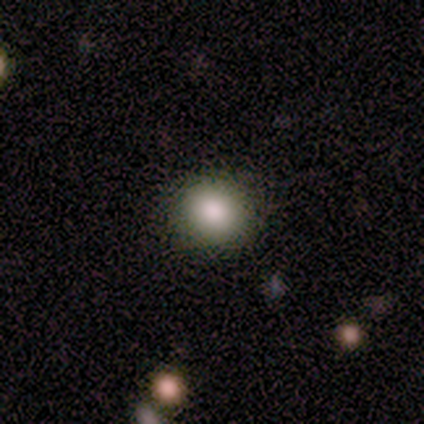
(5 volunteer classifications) smooth-or-featured: smooth: 80% | featured or disk: 20% | star or artifact: 0%
  how-rounded: round: 50% (tied) | in between: 50% (tied) | cigar-shaped: 0%
  merging: none: 100% | minor disturbance: 0% | major disturbance: 0% | merger: 0%